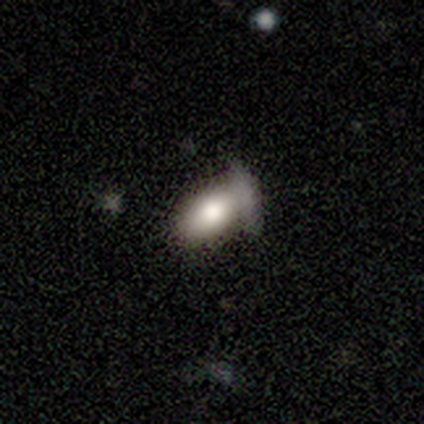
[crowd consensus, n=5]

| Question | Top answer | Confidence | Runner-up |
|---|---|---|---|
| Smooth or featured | smooth | 80% | star or artifact (20%) |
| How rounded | in between | 100% | — |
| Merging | minor disturbance | 50% | none (25%) |